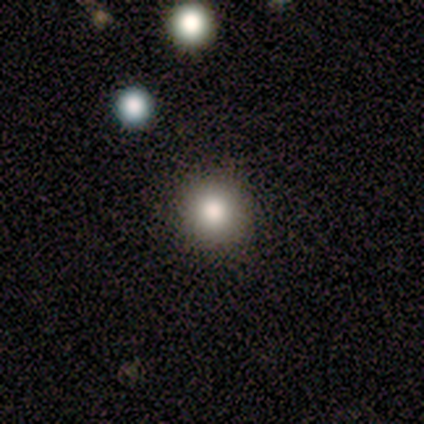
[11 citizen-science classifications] smooth-or-featured: smooth: 73% | star or artifact: 27% | featured or disk: 0%
  how-rounded: round: 88% | in between: 12% | cigar-shaped: 0%
  merging: none: 88% | minor disturbance: 12% | major disturbance: 0% | merger: 0%